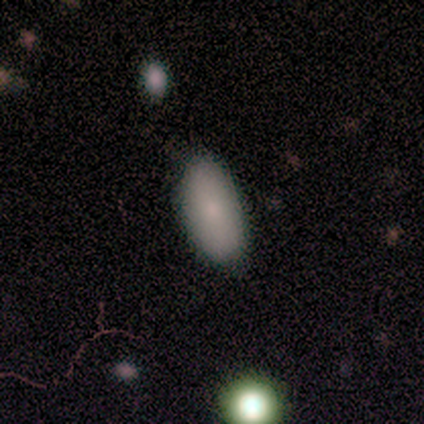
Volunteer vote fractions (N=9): Overall: smooth (78%). How rounded: in between (100%). Merging: none (62%; minor disturbance 25%).